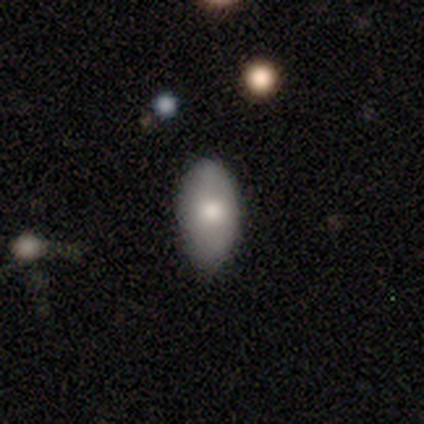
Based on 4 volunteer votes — Morphology: type=smooth (100%); roundness=in between (100%); merging=none (75%).